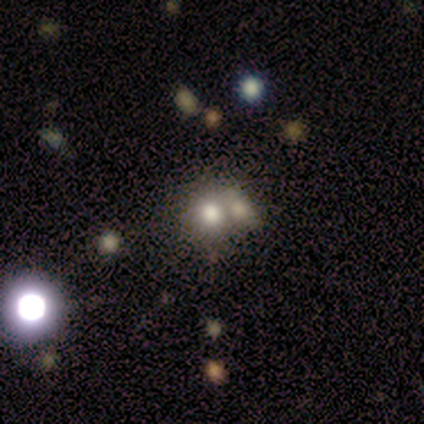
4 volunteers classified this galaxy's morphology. type=smooth (75%); roundness=round (67%); merging=merger (67%).